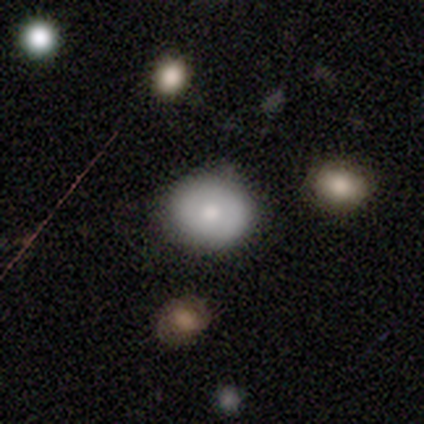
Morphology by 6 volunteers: Volunteers were most divided on "smooth or featured": smooth: 67%, featured or disk: 33%, star or artifact: 0%. More confident: how rounded — round (75%); merging — none (67%).